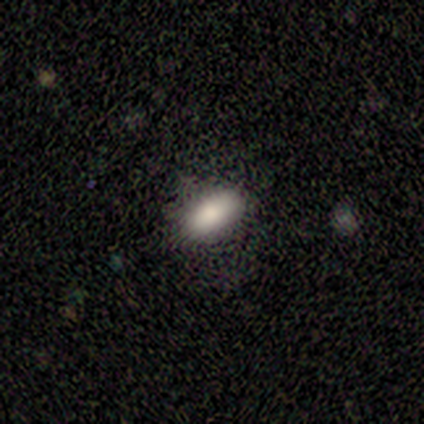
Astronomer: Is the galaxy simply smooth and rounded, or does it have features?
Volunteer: smooth — 100%.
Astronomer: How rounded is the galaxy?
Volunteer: in between — 80%.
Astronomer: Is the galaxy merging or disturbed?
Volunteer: none — 80%.